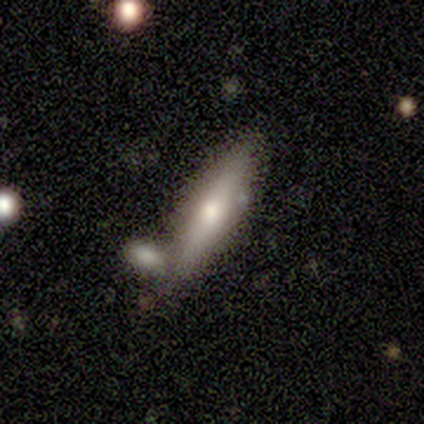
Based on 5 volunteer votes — smooth_or_featured: smooth (p=0.80) [alt: featured or disk p=0.20]
how_rounded: cigar-shaped (p=1.00)
merging: none (p=0.40) [tied with: merger p=0.40]